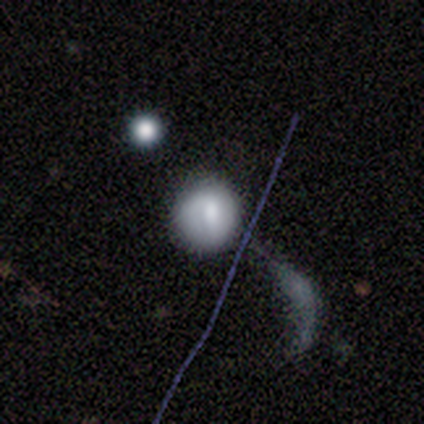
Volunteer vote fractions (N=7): Smooth or featured: smooth — 71% (featured or disk — 29%)
How rounded: round — 100%
Merging: none — 43% (merger — 29%)